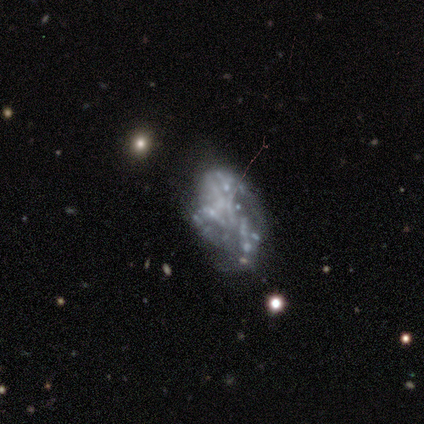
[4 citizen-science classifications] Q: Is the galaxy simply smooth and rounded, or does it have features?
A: featured or disk — 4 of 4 (100%).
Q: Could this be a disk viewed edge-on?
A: no — 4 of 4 (100%).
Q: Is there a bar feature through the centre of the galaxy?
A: no — 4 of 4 (100%).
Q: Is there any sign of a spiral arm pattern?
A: no — 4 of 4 (100%).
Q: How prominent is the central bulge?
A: none — 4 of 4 (100%).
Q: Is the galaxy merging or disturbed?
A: none — 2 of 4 (50%).